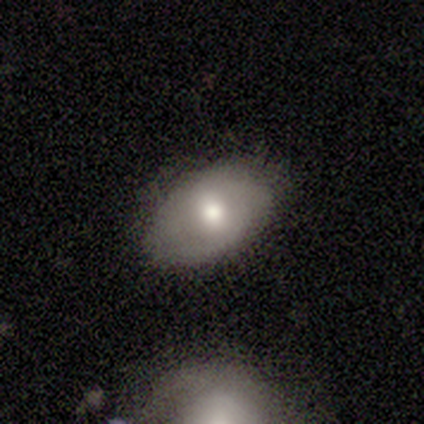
Q: Smooth or featured?
A: smooth (64%); runner-up: featured or disk (25%)
Q: How rounded?
A: in between (91%); runner-up: round (9%)
Q: Merging?
A: none (72%); runner-up: minor disturbance (25%)